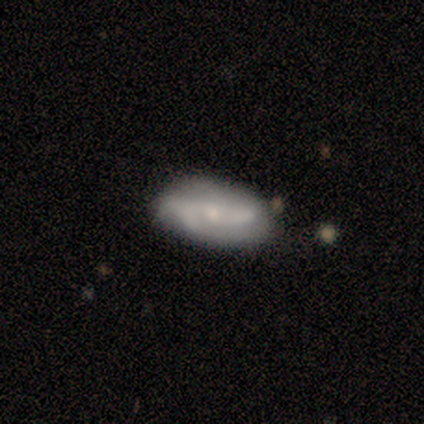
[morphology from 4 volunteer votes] A smooth galaxy with no disk features (50%, tied with featured or disk) that is in between round and cigar-shaped (100%).

Vote fractions:
- Smooth or featured? smooth: 50% (tied) / featured or disk: 50% (tied) / star or artifact: 0%
- How rounded? in between: 100% / round: 0% / cigar-shaped: 0%
- Merging? none: 75% / minor disturbance: 25% / major disturbance: 0% / merger: 0%